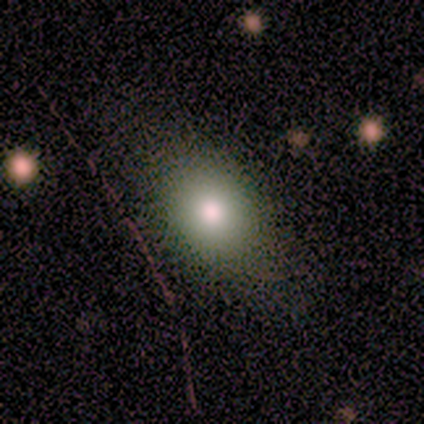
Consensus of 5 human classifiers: Smooth or featured: smooth — 60% (featured or disk — 40%)
How rounded: in between — 67% (round — 33%)
Merging: none — 100%